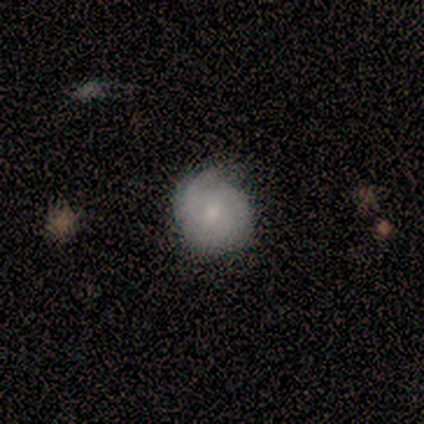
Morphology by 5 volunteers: This is clearly a smooth galaxy (100%). How rounded: clearly round (100%). Merging: likely minor disturbance (60%).